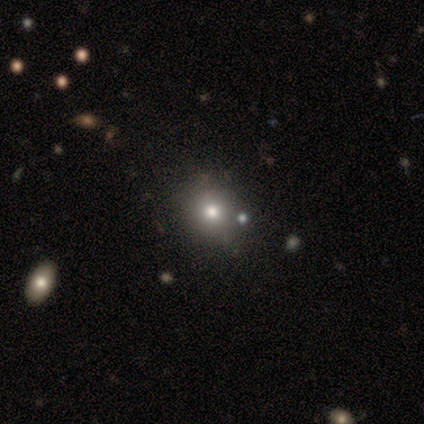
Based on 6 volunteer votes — Smooth or featured? 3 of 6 (50%, tied with star or artifact) said smooth. How rounded? 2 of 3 (67%) said round. Merging? 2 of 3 (67%) said none.